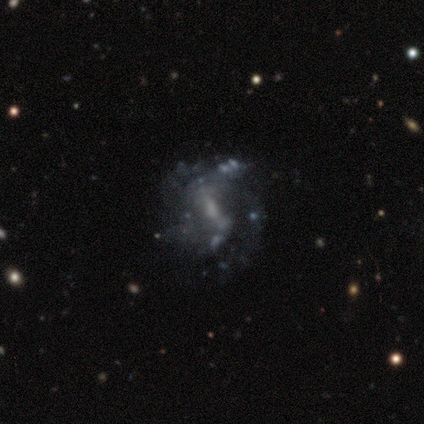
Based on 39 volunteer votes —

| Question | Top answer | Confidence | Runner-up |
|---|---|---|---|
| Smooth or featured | featured or disk | 82% | smooth (10%) |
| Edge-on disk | no | 100% | — |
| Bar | weak | 59% | no (28%) |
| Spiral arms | yes | 75% | no (25%) |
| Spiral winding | loose | 42% | medium (38%) |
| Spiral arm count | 2 | 38% | 1 (21%) |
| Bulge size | small | 53% | moderate (25%) |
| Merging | none | 72% | minor disturbance (14%) |